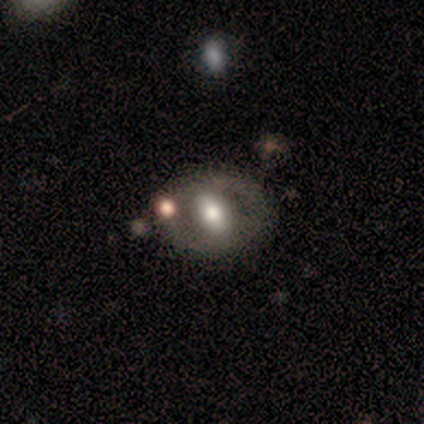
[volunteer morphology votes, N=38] smooth-or-featured: featured or disk: 61% | smooth: 29% | star or artifact: 11%
  disk-edge-on: no: 96% | yes: 4%
    bar: strong: 36% (tied) | no: 36% (tied) | weak: 27%
    has-spiral-arms: no: 77% | yes: 23%
    bulge-size: moderate: 55% | large: 32% | small: 9% | dominant: 5% | none: 0%
  merging: none: 76% | minor disturbance: 9% | major disturbance: 9% | merger: 6%